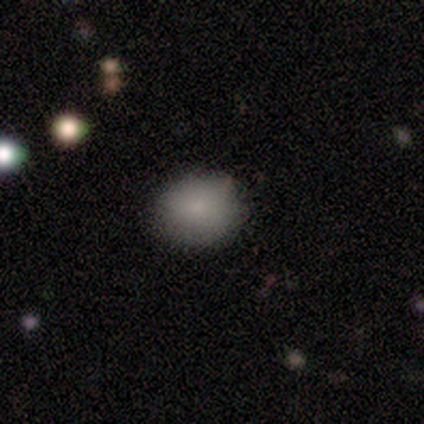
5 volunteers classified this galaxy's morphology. smooth 60%, star or artifact 40%, featured or disk 0%. Down the decision tree: how rounded — round (67%); merging — none (67%).